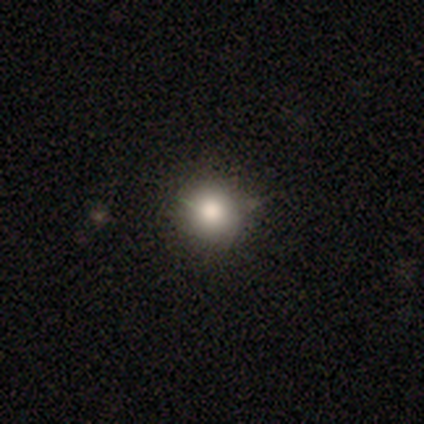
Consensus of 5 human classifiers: Smooth or featured?
  - smooth: 100% *
  - featured or disk: 0%
  - star or artifact: 0%
How rounded?
  - round: 80% *
  - in between: 20%
  - cigar-shaped: 0%
Merging?
  - none: 60% *
  - minor disturbance: 40%
  - major disturbance: 0%
  - merger: 0%